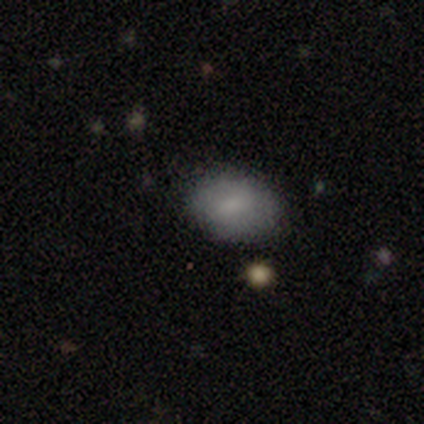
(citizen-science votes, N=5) This is clearly a smooth galaxy (100%). How rounded: likely in between (60%). Merging: clearly none (80%).